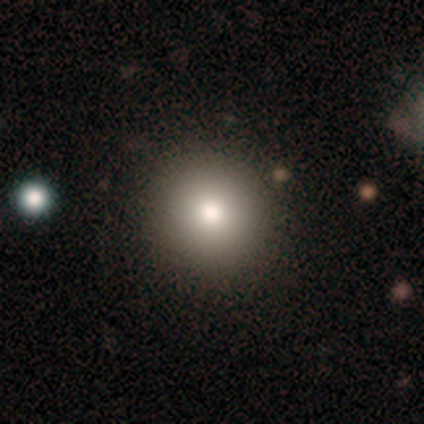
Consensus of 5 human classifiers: Volunteers were most divided on "smooth or featured": smooth: 80%, featured or disk: 20%, star or artifact: 0%. More confident: how rounded — round (100%); merging — none (100%).